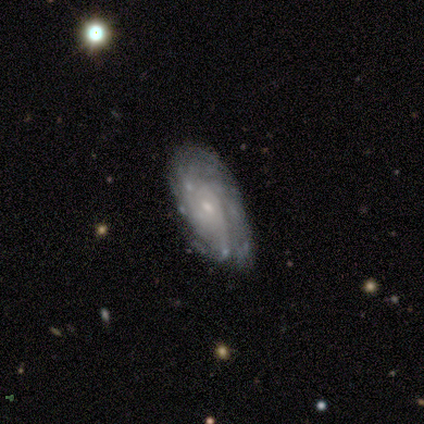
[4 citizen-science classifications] Smooth or featured? 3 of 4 (75%) said featured or disk. Edge-on disk? 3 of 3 (100%) said no. Bar? 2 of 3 (67%) said no. Spiral arms? 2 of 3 (67%) said yes. Spiral winding? 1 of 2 (50%, tied with medium) said tight. Spiral arm count? 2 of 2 (100%) said can't tell. Bulge size? 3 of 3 (100%) said small. Merging? 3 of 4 (75%) said none.